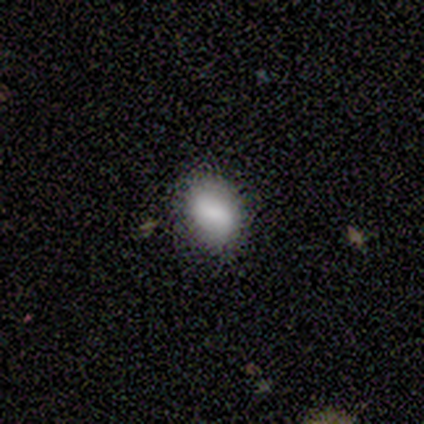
A smooth galaxy with no disk features (100%) that is in between round and cigar-shaped (80%).

Vote fractions:
- Smooth or featured? smooth: 100% / featured or disk: 0% / star or artifact: 0%
- How rounded? in between: 80% / round: 20% / cigar-shaped: 0%
- Merging? none: 80% / minor disturbance: 20% / major disturbance: 0% / merger: 0%